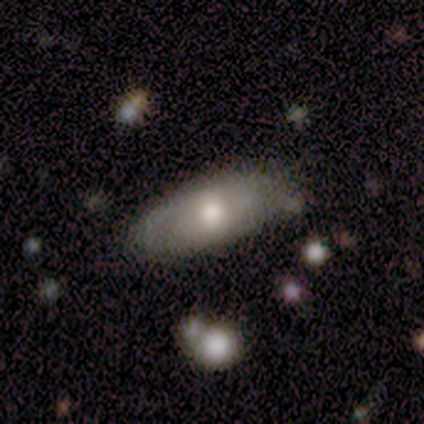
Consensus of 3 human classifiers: Overall: featured or disk (67%; smooth 33%). Edge-on disk: yes (50%, tied with no). Edge-on bulge: rounded (100%). Merging: none (33%, tied with minor disturbance and major disturbance).